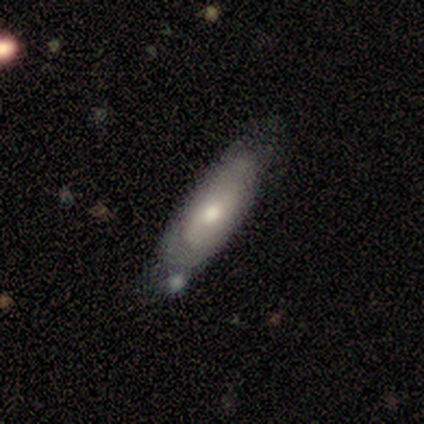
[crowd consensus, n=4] smooth-or-featured: smooth: 75% | featured or disk: 25% | star or artifact: 0%
  how-rounded: cigar-shaped: 67% | in between: 33% | round: 0%
  merging: none: 100% | minor disturbance: 0% | major disturbance: 0% | merger: 0%